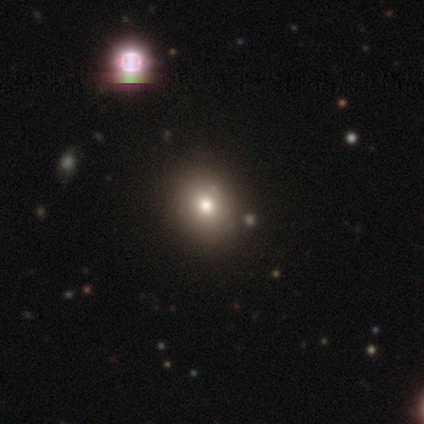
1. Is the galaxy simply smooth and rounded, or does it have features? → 50% star or artifact, 25% smooth, 25% featured or disk.